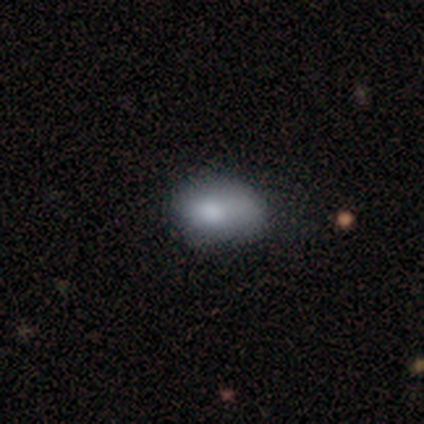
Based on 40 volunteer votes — Smooth or featured?
  - smooth: 90% *
  - featured or disk: 8%
  - star or artifact: 2%
How rounded?
  - in between: 94% *
  - round: 6%
  - cigar-shaped: 0%
Merging?
  - none: 49% *
  - minor disturbance: 41%
  - major disturbance: 8%
  - merger: 3%